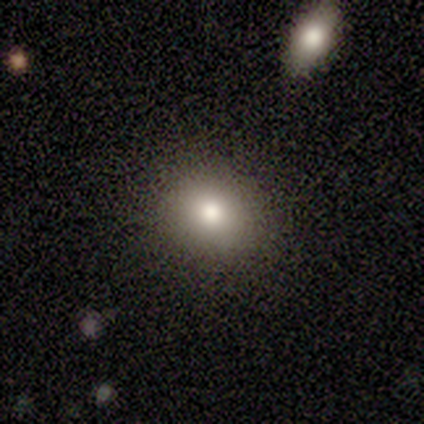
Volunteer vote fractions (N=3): smooth-or-featured: smooth: 67% | star or artifact: 33% | featured or disk: 0%
  how-rounded: round: 50% (tied) | in between: 50% (tied) | cigar-shaped: 0%
  merging: none: 100% | minor disturbance: 0% | major disturbance: 0% | merger: 0%